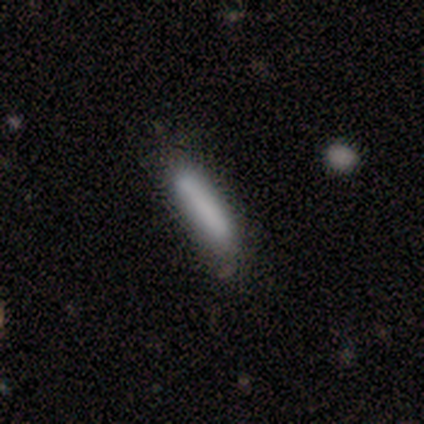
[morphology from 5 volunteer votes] Smooth or featured? 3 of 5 (60%) said smooth. How rounded? 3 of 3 (100%) said cigar-shaped. Merging? 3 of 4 (75%) said none.